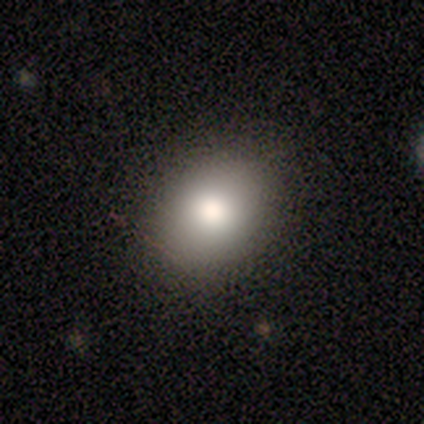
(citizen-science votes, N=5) Morphology: type=smooth (100%); roundness=round (80%); merging=none (60%).